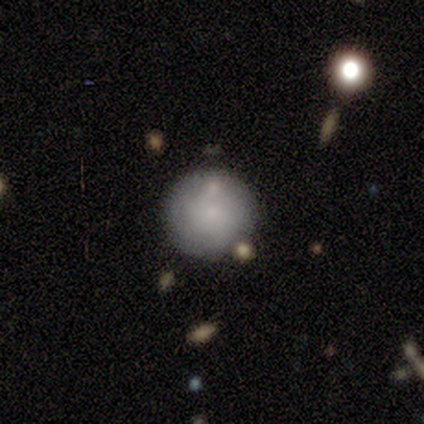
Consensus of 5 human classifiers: Smooth or featured: smooth — 80% (featured or disk — 20%)
How rounded: round — 100%
Merging: none — 80% (minor disturbance — 20%)